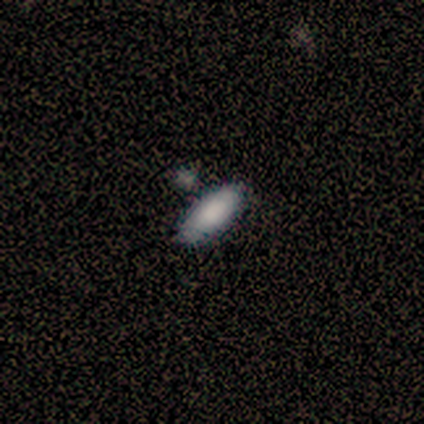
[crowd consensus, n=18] smooth 94%, featured or disk 6%, star or artifact 0%. Down the decision tree: how rounded — in between (82%); merging — none (89%).